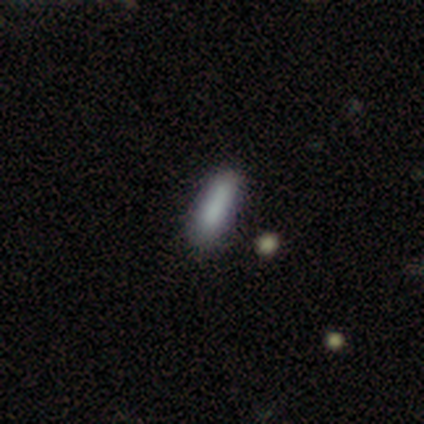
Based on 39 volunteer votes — Smooth or featured: smooth — 77% (featured or disk — 15%)
How rounded: cigar-shaped — 53% (in between — 47%)
Merging: none — 81% (minor disturbance — 11%)